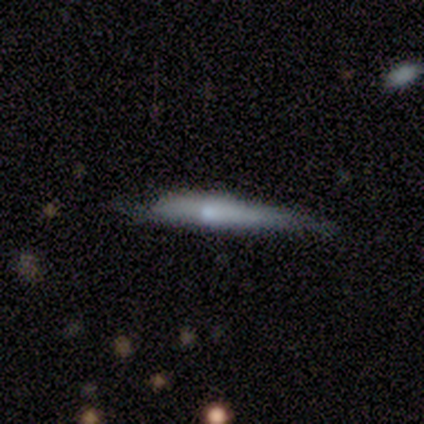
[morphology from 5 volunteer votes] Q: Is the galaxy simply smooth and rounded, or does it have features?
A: featured or disk — 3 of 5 (60%).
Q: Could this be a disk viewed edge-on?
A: yes — 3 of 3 (100%).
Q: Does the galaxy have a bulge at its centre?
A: none — 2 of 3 (67%).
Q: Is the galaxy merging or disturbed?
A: minor disturbance — 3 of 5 (60%).